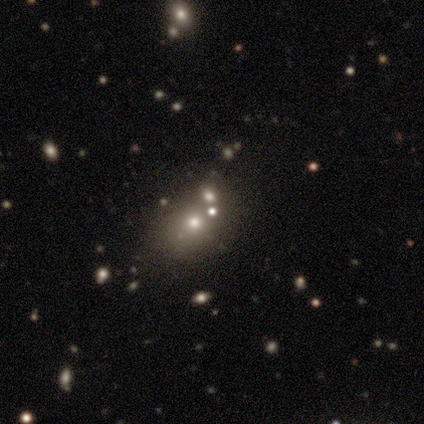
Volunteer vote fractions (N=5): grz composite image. It shows a smooth galaxy with no disk features (60%) that is in between round and cigar-shaped (100%). Merging: none (67%).